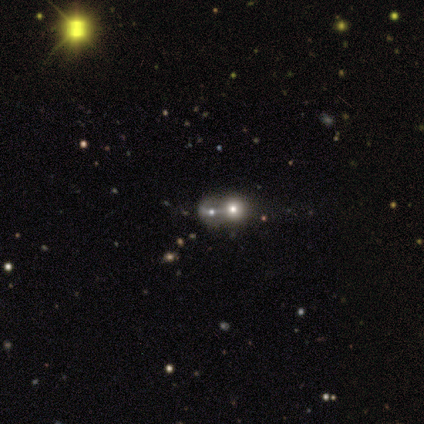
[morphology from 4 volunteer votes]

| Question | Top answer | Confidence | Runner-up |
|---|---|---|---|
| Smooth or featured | featured or disk | 100% | — |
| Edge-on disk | no | 75% | yes (25%) |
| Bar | strong | 33% | tied: weak (33%), no (33%) |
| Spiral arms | no | 100% | — |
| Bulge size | small | 67% | moderate (33%) |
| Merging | merger | 75% | none (25%) |